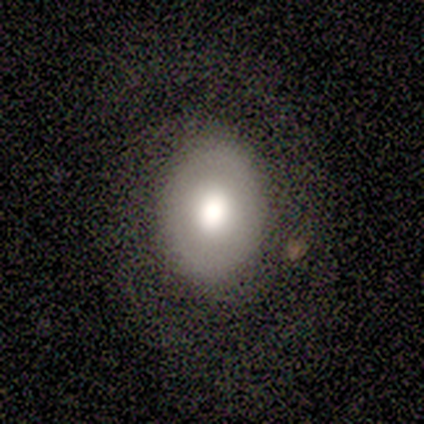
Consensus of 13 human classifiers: This is possibly a smooth galaxy (46%, tied with featured or disk). How rounded: clearly in between (100%). Merging: clearly none (83%).